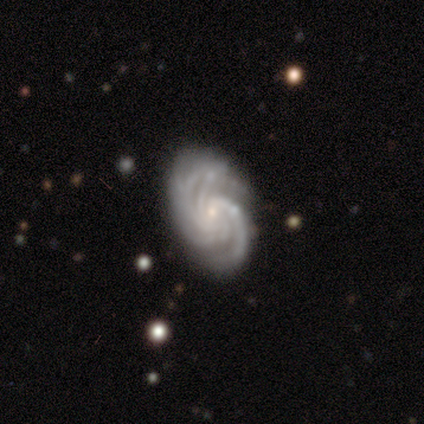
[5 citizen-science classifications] featured or disk 100%, smooth 0%, star or artifact 0%. Down the decision tree: edge-on disk — no (100%); bar — no (80%); spiral arms — yes (100%); spiral arm count — 3 (60%); spiral winding — medium (60%); bulge size — small (60%); merging — none (100%).